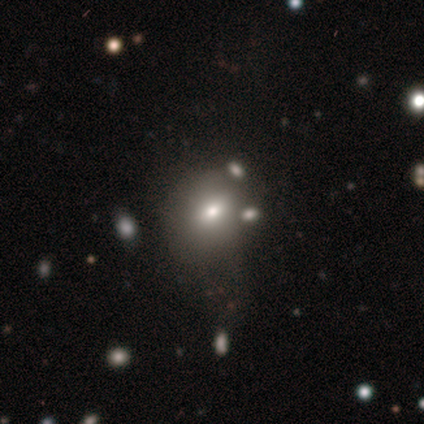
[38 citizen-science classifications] Smooth or featured? 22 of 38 (58%) said smooth. How rounded? 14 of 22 (64%) said round. Merging? 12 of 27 (44%) said none.